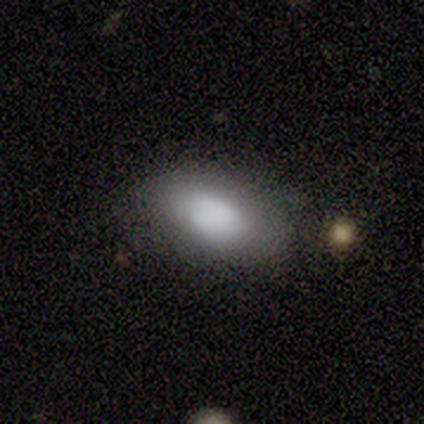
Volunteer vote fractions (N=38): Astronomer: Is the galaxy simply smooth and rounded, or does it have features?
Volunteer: smooth — 76%.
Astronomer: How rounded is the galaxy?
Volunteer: in between — 93%.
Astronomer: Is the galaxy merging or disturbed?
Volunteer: none — 83%.